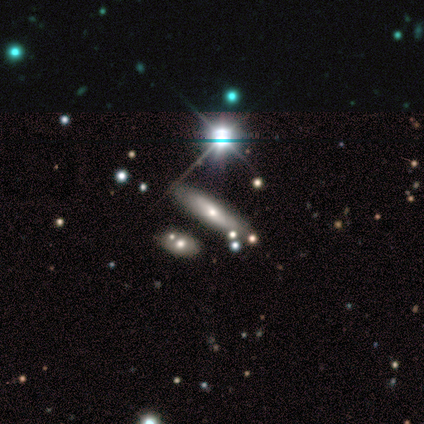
Volunteers were most divided on "how rounded" (2-way tie): in between: 50%, cigar-shaped: 50%, round: 0%. More confident: merging — none (67%); smooth or featured — smooth (50%).